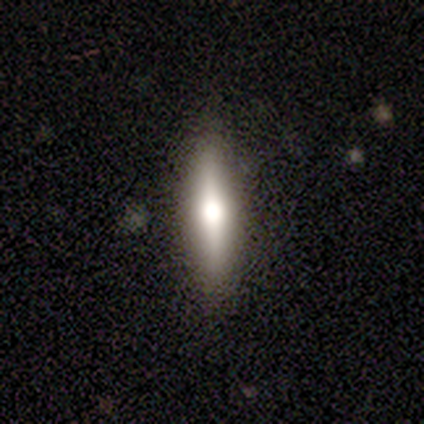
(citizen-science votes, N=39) A smooth galaxy with no disk features (54%) that is cigar-shaped (95%). Merging: none (82%).